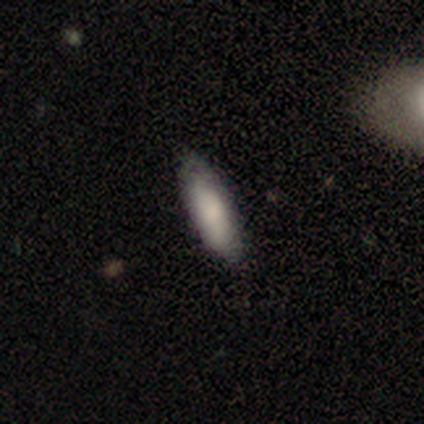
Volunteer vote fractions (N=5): Volunteers were most divided on "bulge size" (2-way tie): moderate: 50%, small: 50%, dominant: 0%, large: 0%, none: 0%. More confident: bar — no (100%); spiral arms — no (100%); merging — none (100%); edge-on disk — no (67%); smooth or featured — featured or disk (60%).